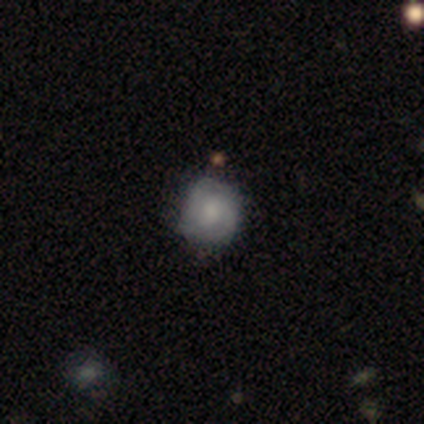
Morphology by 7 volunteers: Smooth or featured?
  - featured or disk: 71% *
  - smooth: 29%
  - star or artifact: 0%
Edge-on disk?
  - no: 100% *
  - yes: 0%
Bar?
  - weak: 60% *
  - no: 40%
  - strong: 0%
Spiral arms?
  - yes: 80% *
  - no: 20%
Spiral winding?
  - tight: 50% * (tied)
  - medium: 50% * (tied)
  - loose: 0%
Spiral arm count?
  - 2: 75% *
  - can't tell: 25%
  - 1: 0%
  - 3: 0%
  - 4: 0%
  - more than 4: 0%
Bulge size?
  - moderate: 80% *
  - small: 20%
  - dominant: 0%
  - large: 0%
  - none: 0%
Merging?
  - none: 57% *
  - minor disturbance: 43%
  - major disturbance: 0%
  - merger: 0%